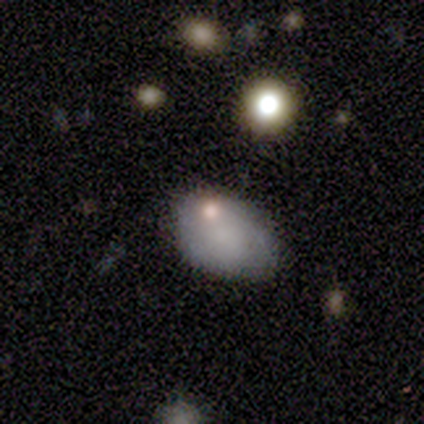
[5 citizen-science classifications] smooth 60%, featured or disk 40%, star or artifact 0%. Down the decision tree: how rounded — in between (67%); merging — none (80%).